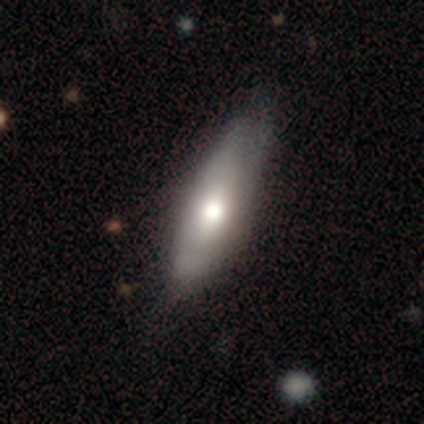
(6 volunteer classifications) Smooth or featured?
  - smooth: 100% *
  - featured or disk: 0%
  - star or artifact: 0%
How rounded?
  - in between: 50% * (tied)
  - cigar-shaped: 50% * (tied)
  - round: 0%
Merging?
  - none: 50% * (tied)
  - minor disturbance: 50% * (tied)
  - major disturbance: 0%
  - merger: 0%